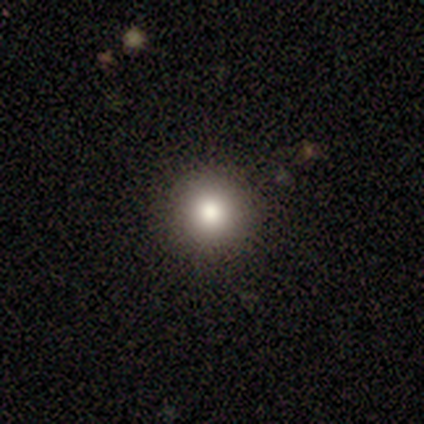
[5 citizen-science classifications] Smooth or featured? smooth (100%)
How rounded? round (100%)
Merging? none (80%)